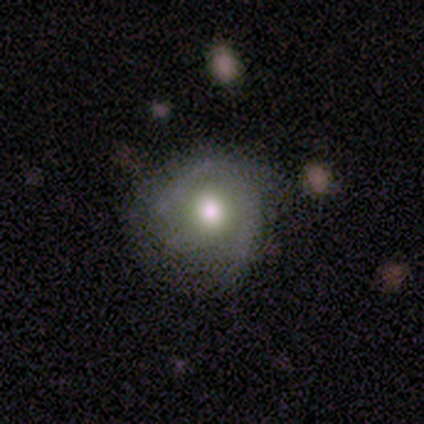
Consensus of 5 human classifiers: This is marginally a smooth galaxy (40%, tied with star or artifact). How rounded: clearly round (100%). Merging: clearly none (100%).